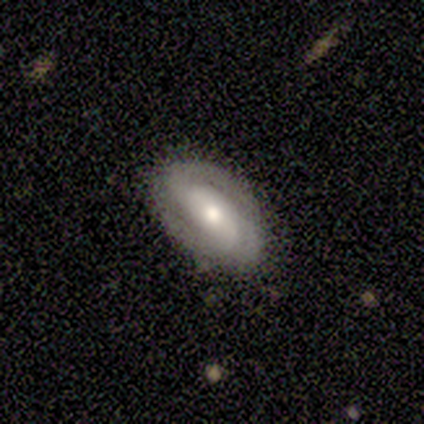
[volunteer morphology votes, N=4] A featured or disk galaxy (50%) viewed edge-on (50%, tied with no) with a boxy central bulge (100%).

Vote fractions:
- Smooth or featured? featured or disk: 50% / smooth: 25% / star or artifact: 25%
- Edge-on disk? yes: 50% (tied) / no: 50% (tied)
- Edge-on bulge? boxy: 100% / none: 0% / rounded: 0%
- Merging? none: 67% / minor disturbance: 33% / major disturbance: 0% / merger: 0%